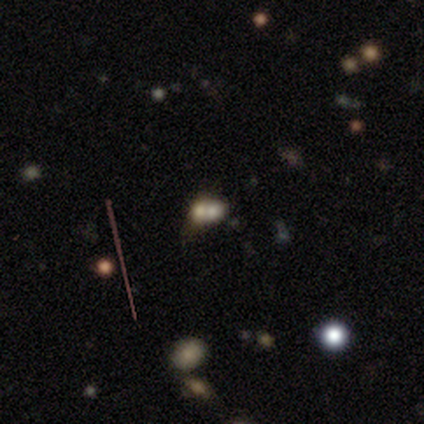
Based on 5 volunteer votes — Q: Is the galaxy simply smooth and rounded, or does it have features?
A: smooth — 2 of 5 (40%, tied with featured or disk).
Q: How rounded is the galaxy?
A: round — 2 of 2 (100%).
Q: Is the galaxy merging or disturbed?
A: merger — 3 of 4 (75%).